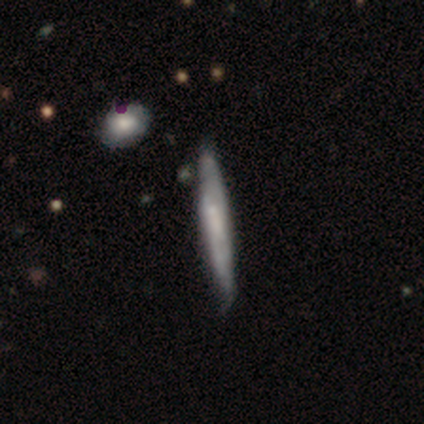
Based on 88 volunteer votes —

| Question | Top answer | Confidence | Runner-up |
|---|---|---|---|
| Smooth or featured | featured or disk | 47% | smooth (44%) |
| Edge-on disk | yes | 78% | no (22%) |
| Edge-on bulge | none | 81% | boxy (16%) |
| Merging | none | 68% | minor disturbance (25%) |